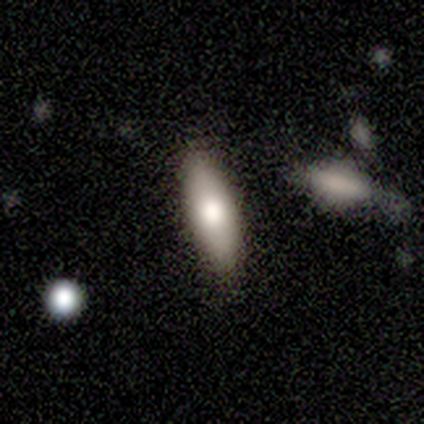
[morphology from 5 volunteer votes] type=smooth (100%); roundness=in between (100%); merging=none (100%).